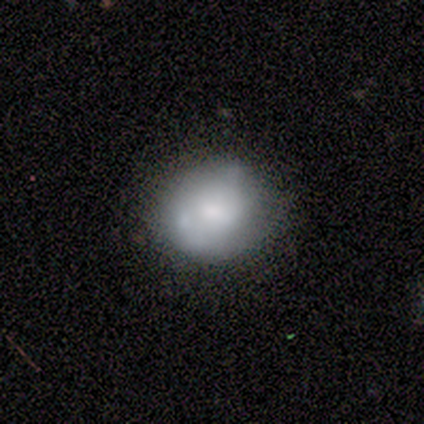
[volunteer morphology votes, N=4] smooth_or_featured: smooth (p=0.50) [alt: featured or disk p=0.25]
how_rounded: round (p=0.50) [tied with: in between p=0.50]
merging: none (p=0.33) [tied with: minor disturbance p=0.33, major disturbance p=0.33]